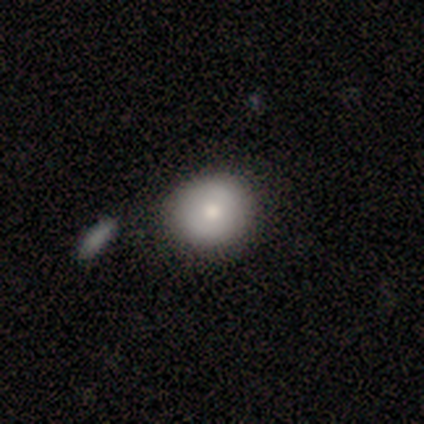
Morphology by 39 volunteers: A smooth galaxy with no disk features (74%) that is round (79%). Merging: none (58%).